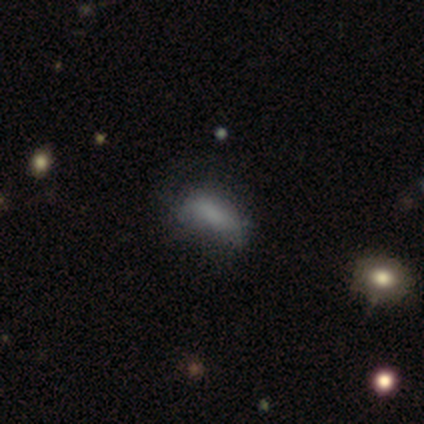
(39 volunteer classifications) This appears to be a smooth galaxy with no disk features (69%) that is in between round and cigar-shaped (85%). Merging: none (56%).